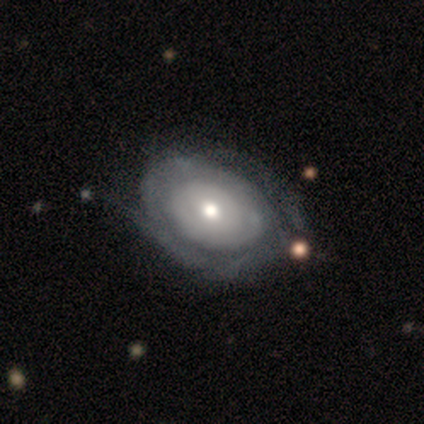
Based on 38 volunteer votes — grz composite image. It shows a featured or disk galaxy (84%) with no bar (81%), tight (71%) spiral arms (66%) and a moderate central bulge (59%). Merging: none (66%).